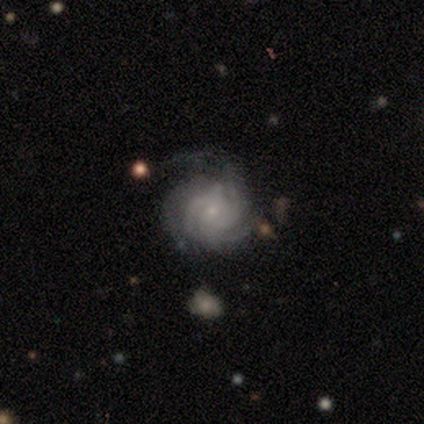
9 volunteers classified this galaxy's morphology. smooth_or_featured: featured or disk (p=0.89) [alt: star or artifact p=0.11]
disk_edge_on: no (p=1.00)
bar: no (p=0.88) [alt: weak p=0.12]
has_spiral_arms: yes (p=1.00)
spiral_winding: tight (p=0.50) [tied with: medium p=0.50]
spiral_arm_count: 3 (p=0.75) [alt: can't tell p=0.25]
bulge_size: small (p=0.88) [alt: moderate p=0.12]
merging: none (p=0.50) [alt: minor disturbance p=0.25]